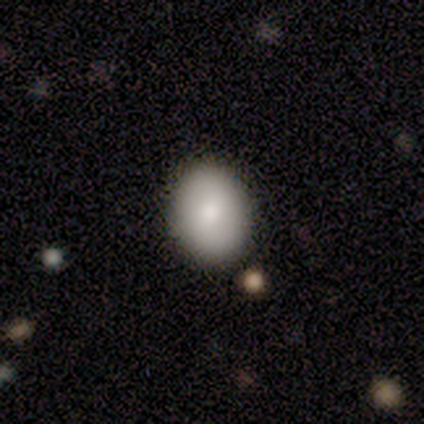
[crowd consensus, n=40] Smooth or featured: smooth — 80% (featured or disk — 15%)
How rounded: in between — 72% (round — 28%)
Merging: none — 97% (merger — 3%)